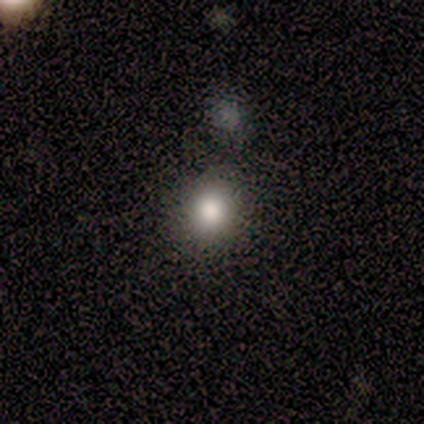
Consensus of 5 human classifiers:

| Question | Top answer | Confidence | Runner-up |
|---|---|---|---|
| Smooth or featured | smooth | 80% | star or artifact (20%) |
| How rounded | round | 100% | — |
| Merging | none | 75% | minor disturbance (25%) |